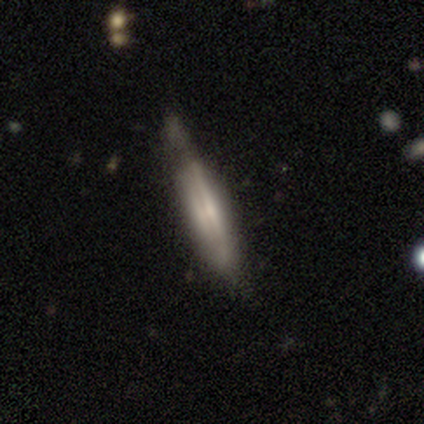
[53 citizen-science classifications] Overall: featured or disk (83%). Edge-on disk: yes (98%). Edge-on bulge: none (44%; boxy 28%). Merging: none (59%; minor disturbance 37%).